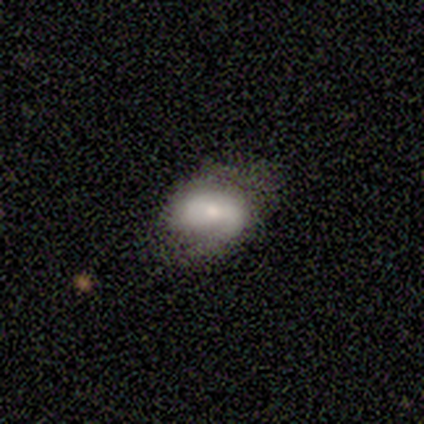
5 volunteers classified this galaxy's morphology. Smooth or featured? featured or disk (100%)
Edge-on disk? no (100%)
Bar? no (80%)
Spiral arms? yes (60%)
Spiral winding? tight (33%, tied with medium and loose)
Spiral arm count? 1 (100%)
Bulge size? small (60%)
Merging? minor disturbance (80%)